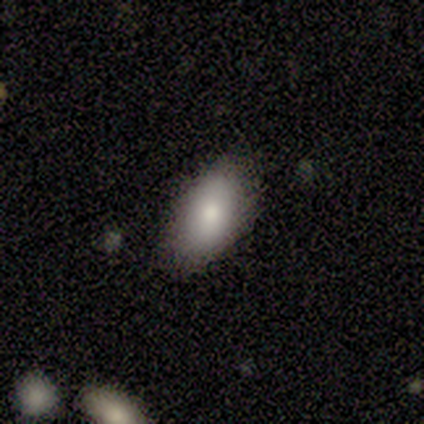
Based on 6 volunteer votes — This is clearly a smooth galaxy (83%). How rounded: clearly in between (80%). Merging: clearly none (100%).